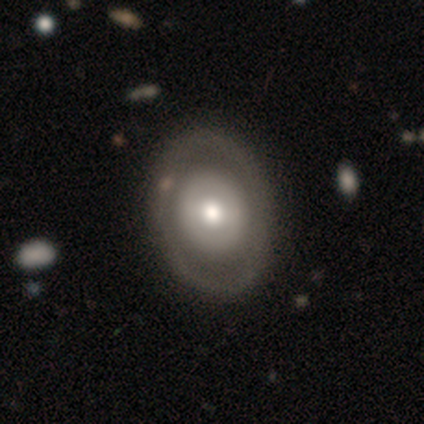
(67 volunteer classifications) smooth_or_featured: featured or disk (p=0.61) [alt: smooth p=0.36]
disk_edge_on: no (p=0.98) [alt: yes p=0.02]
bar: no (p=0.65) [alt: weak p=0.28]
has_spiral_arms: no (p=0.88) [alt: yes p=0.12]
bulge_size: moderate (p=0.60) [alt: large p=0.28]
merging: none (p=0.88) [alt: minor disturbance p=0.08]